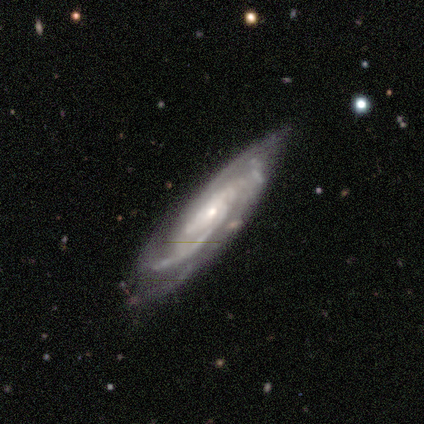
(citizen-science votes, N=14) Smooth or featured? 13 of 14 (93%) said featured or disk. Edge-on disk? 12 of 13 (92%) said no. Bar? 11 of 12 (92%) said no. Spiral arms? 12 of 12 (100%) said yes. Spiral winding? 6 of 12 (50%) said tight. Spiral arm count? 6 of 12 (50%) said can't tell. Bulge size? 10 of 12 (83%) said small. Merging? 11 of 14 (79%) said none.